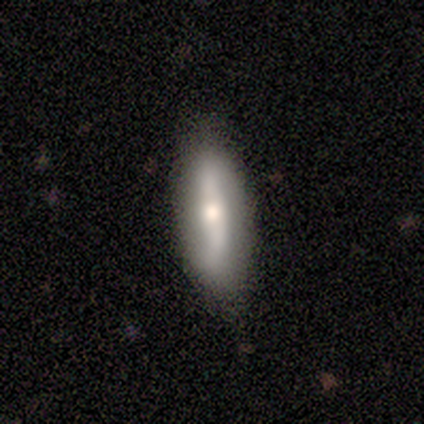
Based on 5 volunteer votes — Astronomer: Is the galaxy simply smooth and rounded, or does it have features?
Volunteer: featured or disk — 60% (runner-up: smooth, 40%).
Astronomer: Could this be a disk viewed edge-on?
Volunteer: no — 67%.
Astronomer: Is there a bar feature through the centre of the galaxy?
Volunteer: strong — 50%, tied with weak at 50%.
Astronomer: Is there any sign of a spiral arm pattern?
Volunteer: yes — 50%, tied with no at 50%.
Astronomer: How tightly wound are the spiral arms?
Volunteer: loose — 100%.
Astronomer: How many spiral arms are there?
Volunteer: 2 — 100%.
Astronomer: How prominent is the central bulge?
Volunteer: moderate — 50%, tied with small at 50%.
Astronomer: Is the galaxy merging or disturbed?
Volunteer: none — 60% (runner-up: minor disturbance, 40%).